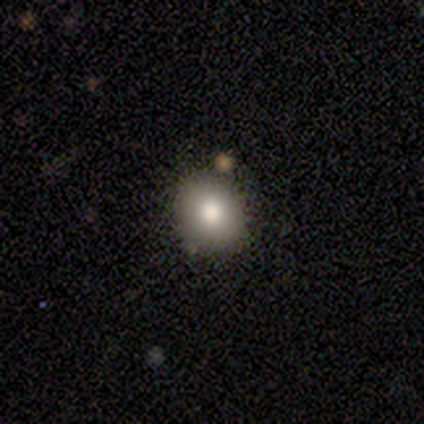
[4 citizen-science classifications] smooth-or-featured: featured or disk: 50% | smooth: 25% | star or artifact: 25%
  disk-edge-on: no: 100% | yes: 0%
    bar: no: 100% | strong: 0% | weak: 0%
    has-spiral-arms: no: 100% | yes: 0%
    bulge-size: large: 50% (tied) | moderate: 50% (tied) | dominant: 0% | small: 0% | none: 0%
  merging: none: 100% | minor disturbance: 0% | major disturbance: 0% | merger: 0%